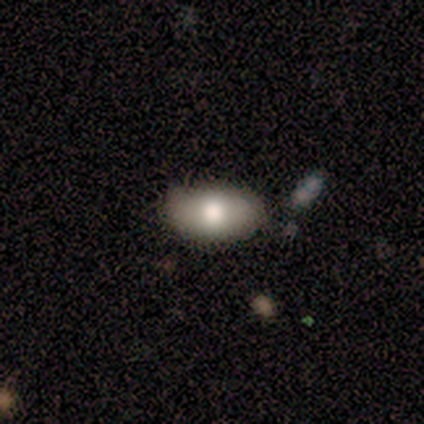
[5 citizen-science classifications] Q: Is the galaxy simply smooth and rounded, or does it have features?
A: smooth — 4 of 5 (80%).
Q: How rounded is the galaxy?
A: in between — 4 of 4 (100%).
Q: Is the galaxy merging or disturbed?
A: none — 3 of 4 (75%).